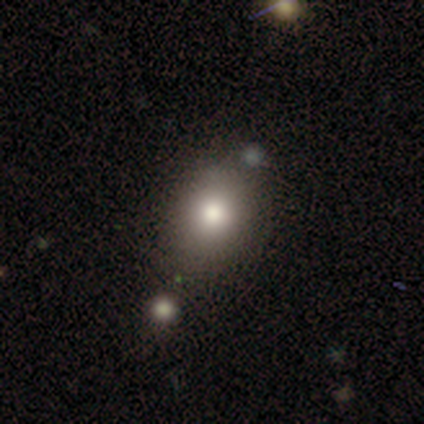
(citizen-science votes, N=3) Smooth or featured? 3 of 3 (100%) said smooth. How rounded? 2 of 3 (67%) said in between. Merging? 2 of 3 (67%) said none.